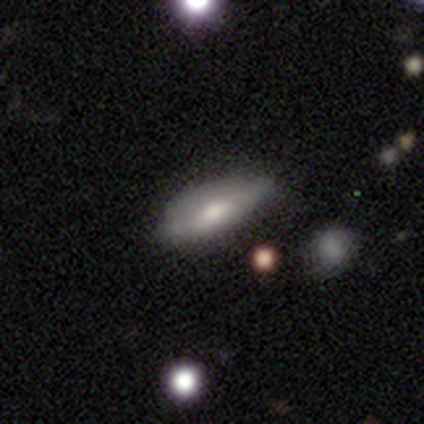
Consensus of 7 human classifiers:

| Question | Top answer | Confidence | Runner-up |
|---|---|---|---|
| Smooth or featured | smooth | 71% | featured or disk (14%) |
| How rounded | in between | 60% | cigar-shaped (40%) |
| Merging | none | 67% | minor disturbance (17%) |